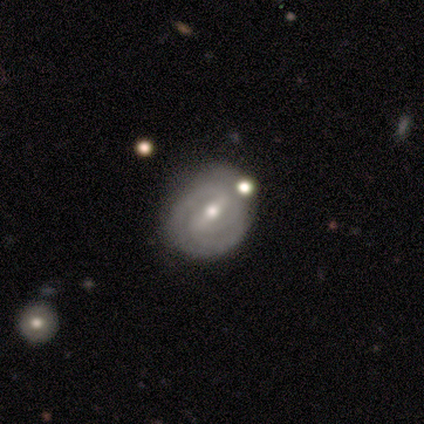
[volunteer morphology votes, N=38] Smooth or featured? 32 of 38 (84%) said featured or disk. Edge-on disk? 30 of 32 (94%) said no. Bar? 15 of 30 (50%) said weak. Spiral arms? 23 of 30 (77%) said yes. Spiral winding? 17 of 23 (74%) said tight. Spiral arm count? 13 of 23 (57%) said 2. Bulge size? 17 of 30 (57%) said moderate. Merging? 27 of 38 (71%) said none.